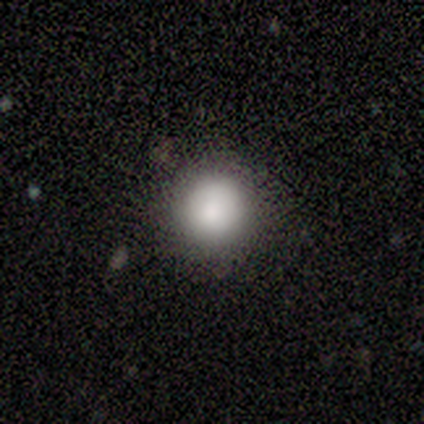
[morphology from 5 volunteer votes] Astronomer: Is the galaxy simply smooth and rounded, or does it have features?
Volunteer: smooth — 80%.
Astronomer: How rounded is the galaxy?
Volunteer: round — 100%.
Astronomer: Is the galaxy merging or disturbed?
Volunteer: none — 100%.